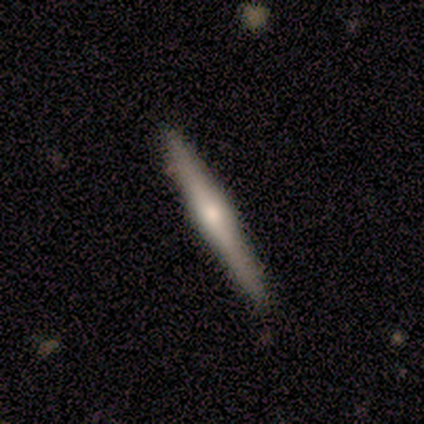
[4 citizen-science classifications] Smooth or featured?
  - featured or disk: 50% *
  - smooth: 25%
  - star or artifact: 25%
Edge-on disk?
  - yes: 100% *
  - no: 0%
Edge-on bulge?
  - rounded: 100% *
  - boxy: 0%
  - none: 0%
Merging?
  - none: 67% *
  - merger: 33%
  - minor disturbance: 0%
  - major disturbance: 0%